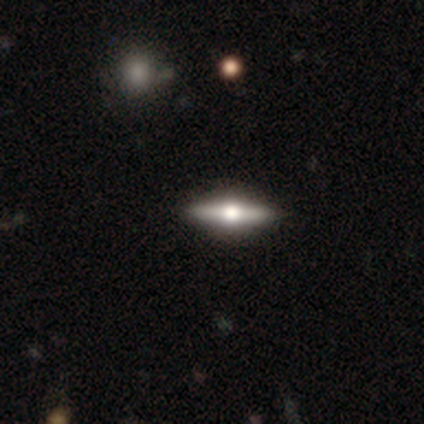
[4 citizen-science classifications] smooth_or_featured: featured or disk (p=0.75) [alt: smooth p=0.25]
disk_edge_on: yes (p=0.67) [alt: no p=0.33]
edge_on_bulge: rounded (p=1.00)
merging: none (p=0.75) [alt: minor disturbance p=0.25]